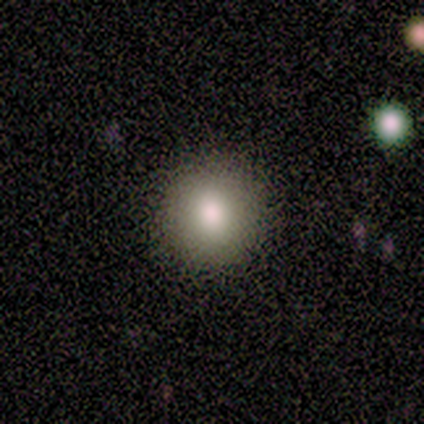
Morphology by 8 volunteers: This appears to be a smooth galaxy with no disk features (88%) that is round (86%). Merging: none (100%).